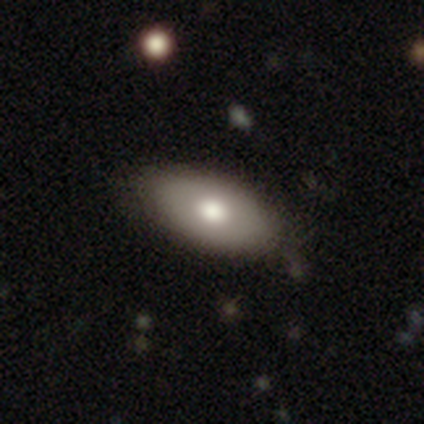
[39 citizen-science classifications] Smooth or featured: smooth — 82% (featured or disk — 15%)
How rounded: in between — 91% (cigar-shaped — 9%)
Merging: none — 55% (minor disturbance — 8%)